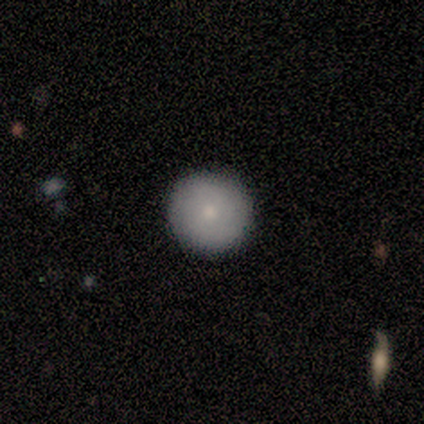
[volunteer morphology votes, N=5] smooth 100%, featured or disk 0%, star or artifact 0%. Down the decision tree: how rounded — round (100%); merging — none (100%).